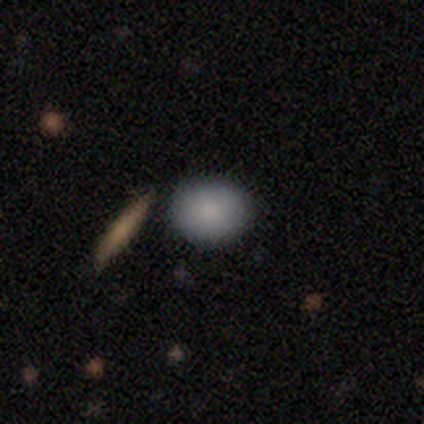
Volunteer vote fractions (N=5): A smooth galaxy with no disk features (100%) that is in between round and cigar-shaped (60%). Merging: none (80%).